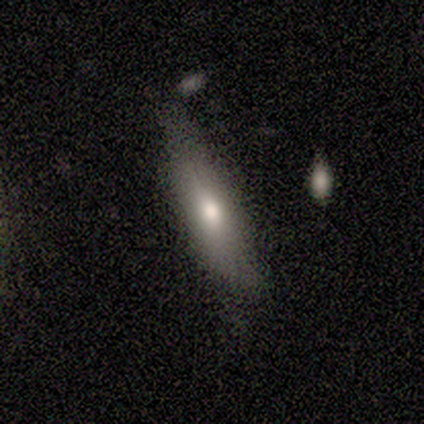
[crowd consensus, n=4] Morphology: type=smooth (75%); roundness=in between (100%); merging=minor disturbance (75%).